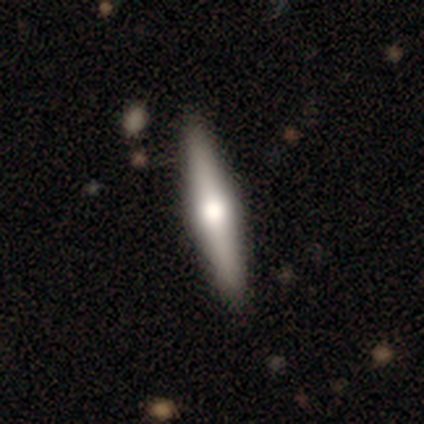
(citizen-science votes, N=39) Smooth or featured: featured or disk — 62% (smooth — 33%)
Edge-on disk: yes — 100%
Edge-on bulge: rounded — 79% (none — 12%)
Merging: none — 89% (minor disturbance — 8%)